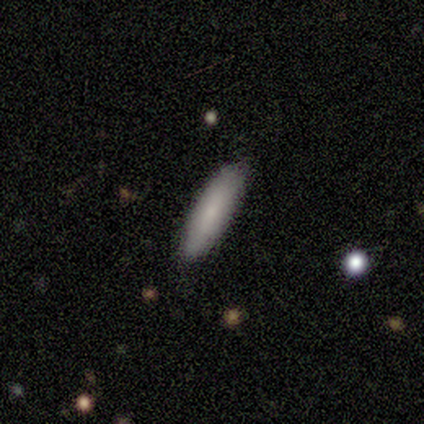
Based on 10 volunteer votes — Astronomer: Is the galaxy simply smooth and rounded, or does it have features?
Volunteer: smooth — 90%.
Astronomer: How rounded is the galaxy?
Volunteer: cigar-shaped — 78%.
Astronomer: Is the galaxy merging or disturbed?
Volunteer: none — 100%.